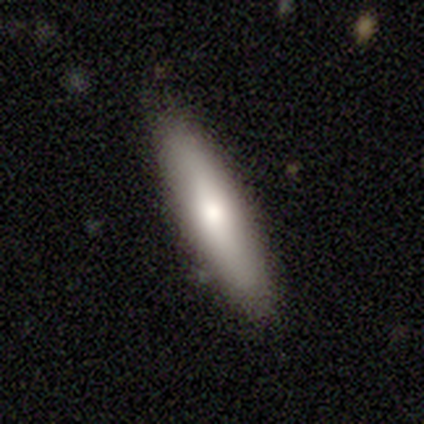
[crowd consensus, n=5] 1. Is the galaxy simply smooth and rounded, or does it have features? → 80% smooth, 20% featured or disk, 0% star or artifact.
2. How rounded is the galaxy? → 100% cigar-shaped, 0% round, 0% in between.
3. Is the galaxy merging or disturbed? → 100% none, 0% minor disturbance, 0% major disturbance, 0% merger.